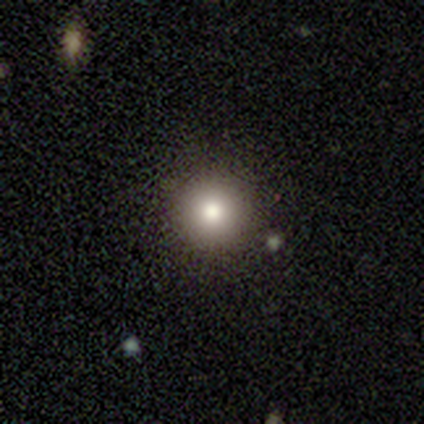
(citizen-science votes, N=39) Morphology: type=smooth (90%); roundness=round (94%); merging=none (92%).